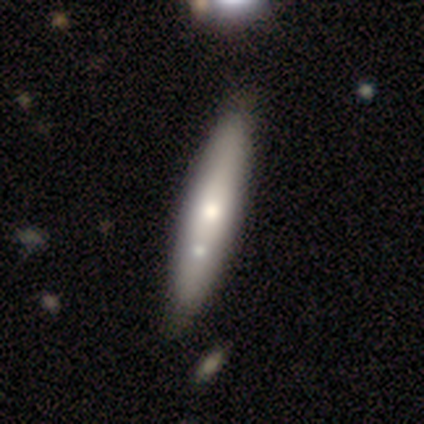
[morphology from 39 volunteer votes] smooth 51%, featured or disk 44%, star or artifact 5%. Down the decision tree: how rounded — cigar-shaped (70%); merging — none (62%).